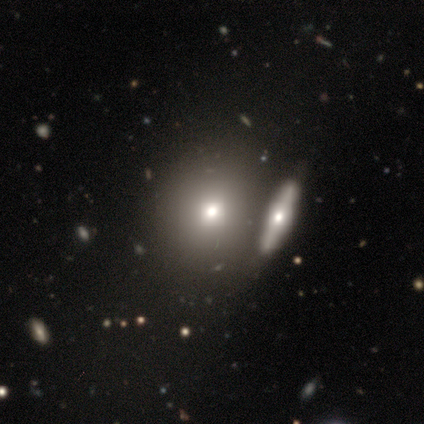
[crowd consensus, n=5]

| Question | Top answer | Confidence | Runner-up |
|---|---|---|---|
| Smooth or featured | smooth | 100% | — |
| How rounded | round | 60% | in between (40%) |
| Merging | none | 40% | tied: minor disturbance (40%) |